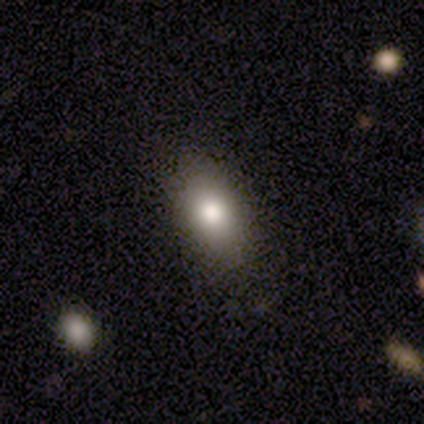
Smooth or featured? 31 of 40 (78%) said smooth. How rounded? 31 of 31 (100%) said in between. Merging? 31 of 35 (89%) said none.